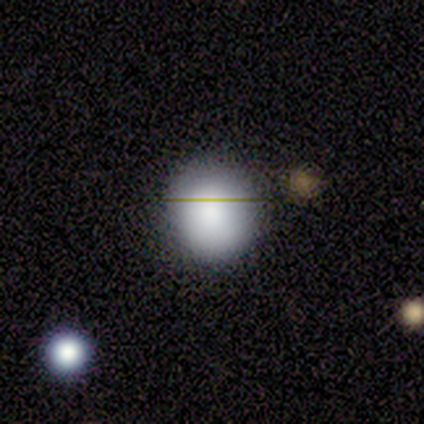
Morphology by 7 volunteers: type=smooth (100%); roundness=round (100%); merging=none (86%).